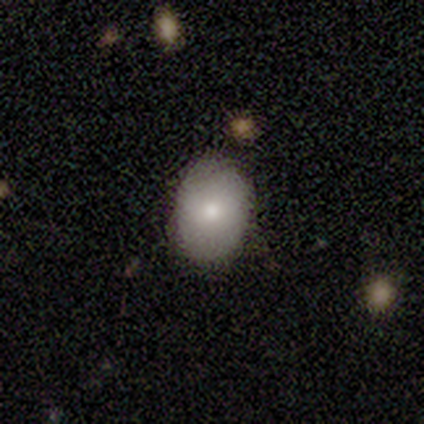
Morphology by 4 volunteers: Smooth or featured? 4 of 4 (100%) said smooth. How rounded? 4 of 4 (100%) said in between. Merging? 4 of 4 (100%) said none.